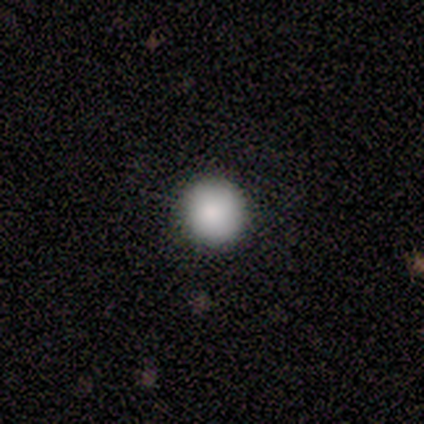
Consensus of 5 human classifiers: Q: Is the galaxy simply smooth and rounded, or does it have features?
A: smooth — 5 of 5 (100%).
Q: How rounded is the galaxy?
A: round — 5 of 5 (100%).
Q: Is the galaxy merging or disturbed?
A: none — 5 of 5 (100%).